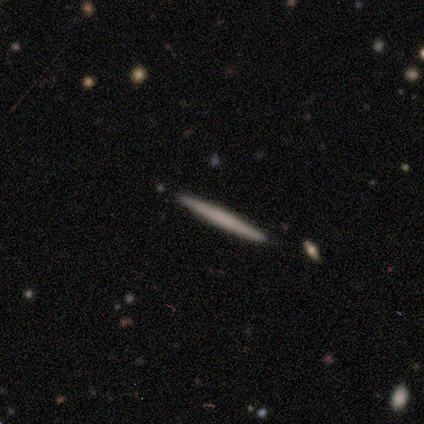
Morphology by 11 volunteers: Smooth or featured? 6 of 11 (55%) said featured or disk. Edge-on disk? 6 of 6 (100%) said yes. Edge-on bulge? 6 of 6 (100%) said none. Merging? 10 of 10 (100%) said none.